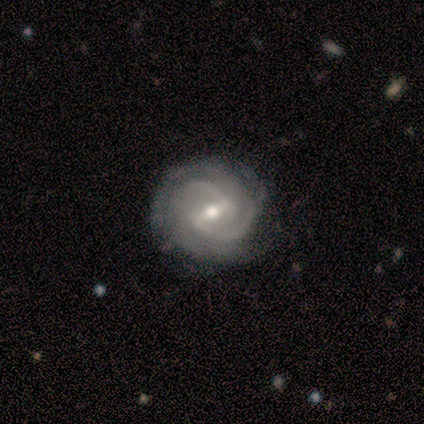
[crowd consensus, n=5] Overall: featured or disk (100%). Edge-on disk: no (100%). Bar: weak (60%; strong 40%). Spiral arms: yes (100%). Spiral arm count: 2 (40%, tied with 3). Spiral winding: tight (80%). Bulge size: moderate (80%). Merging: none (60%; minor disturbance 40%).